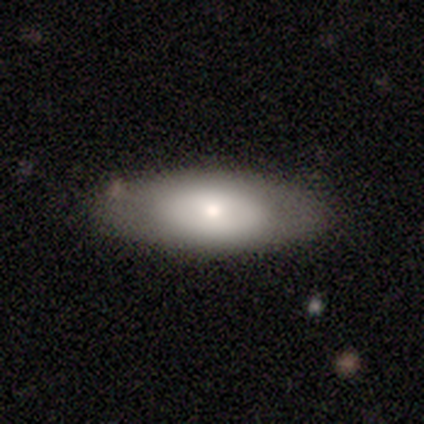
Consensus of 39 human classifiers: A smooth galaxy with no disk features (69%) that is in between round and cigar-shaped (81%).

Vote fractions:
- Smooth or featured? smooth: 69% / featured or disk: 31% / star or artifact: 0%
- How rounded? in between: 81% / cigar-shaped: 15% / round: 4%
- Merging? none: 51% / minor disturbance: 21% / major disturbance: 3% / merger: 3%